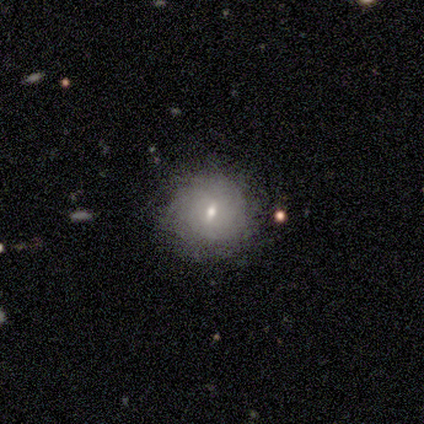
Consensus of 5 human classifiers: A smooth galaxy with no disk features (80%) that is round (100%). Merging: none (80%).